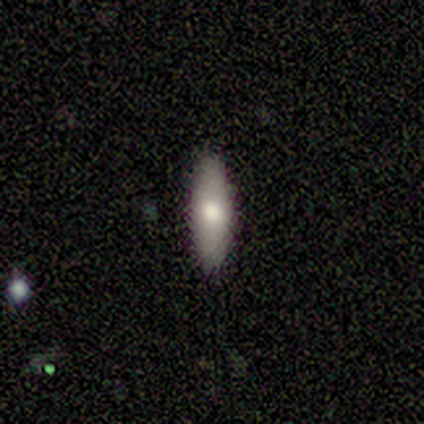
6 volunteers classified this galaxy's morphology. A smooth galaxy with no disk features (67%) that is cigar-shaped (75%).

Vote fractions:
- Smooth or featured? smooth: 67% / featured or disk: 17% / star or artifact: 17%
- How rounded? cigar-shaped: 75% / in between: 25% / round: 0%
- Merging? none: 60% / minor disturbance: 20% / merger: 20% / major disturbance: 0%